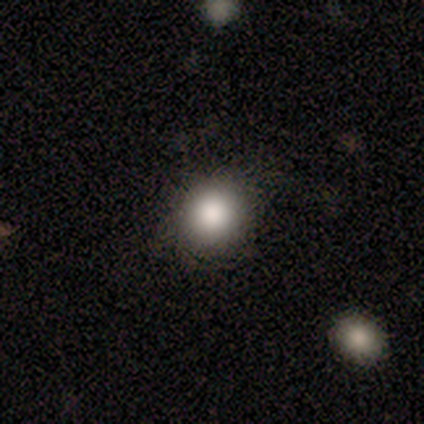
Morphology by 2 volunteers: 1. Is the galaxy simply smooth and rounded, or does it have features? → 50% smooth (tied), 50% star or artifact (tied), 0% featured or disk.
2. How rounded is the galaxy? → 100% in between, 0% round, 0% cigar-shaped.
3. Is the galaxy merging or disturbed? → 100% none, 0% minor disturbance, 0% major disturbance, 0% merger.